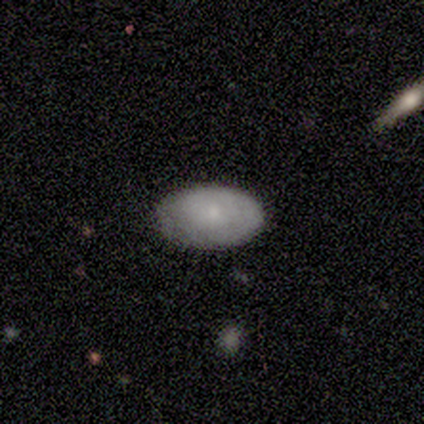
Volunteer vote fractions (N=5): This appears to be a smooth galaxy with no disk features (80%) that is in between round and cigar-shaped (75%). Merging: none (80%).